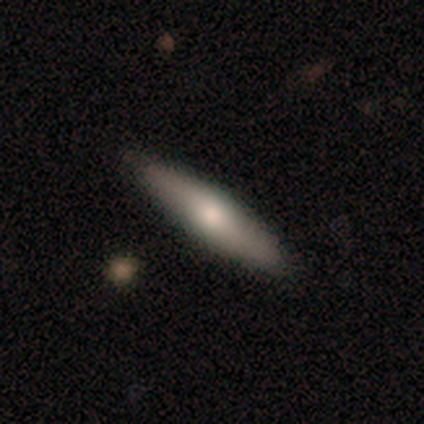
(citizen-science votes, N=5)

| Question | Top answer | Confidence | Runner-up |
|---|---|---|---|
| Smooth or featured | smooth | 100% | — |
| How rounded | cigar-shaped | 80% | in between (20%) |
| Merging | none | 100% | — |